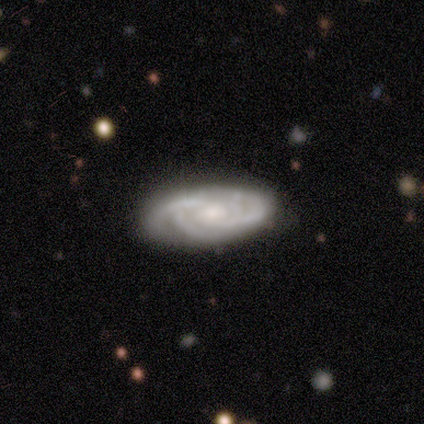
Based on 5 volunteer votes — This appears to be a featured or disk galaxy (80%) with a weak bar (75%), 2 (75%) tight (75%) spiral arms (100%) and a small central bulge (75%). Merging: none (80%).